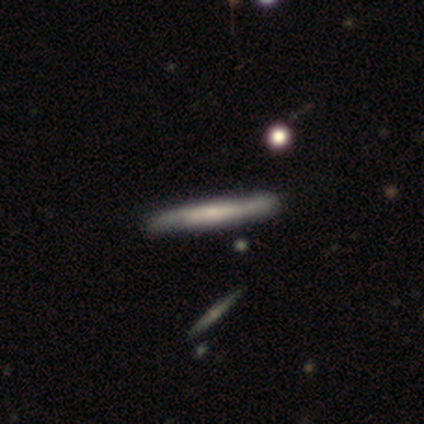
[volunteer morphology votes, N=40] Overall: featured or disk (68%; smooth 32%). Edge-on disk: yes (81%). Edge-on bulge: none (50%; rounded 32%). Merging: none (60%).